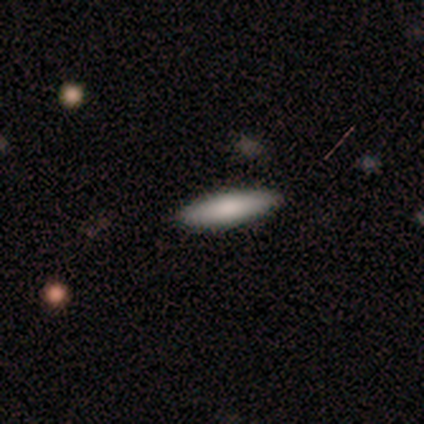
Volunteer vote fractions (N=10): This appears to be a smooth galaxy with no disk features (100%) that is cigar-shaped (80%). Merging: none (100%).